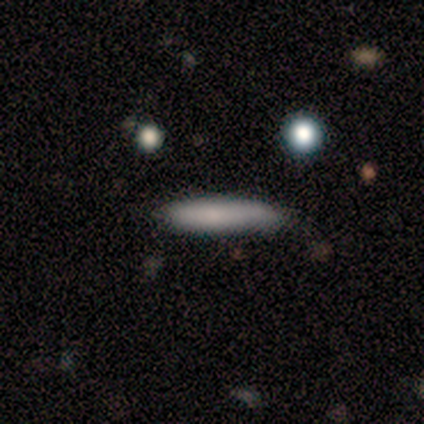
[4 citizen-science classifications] Smooth or featured: smooth — 75% (star or artifact — 25%)
How rounded: cigar-shaped — 100%
Merging: none — 100%